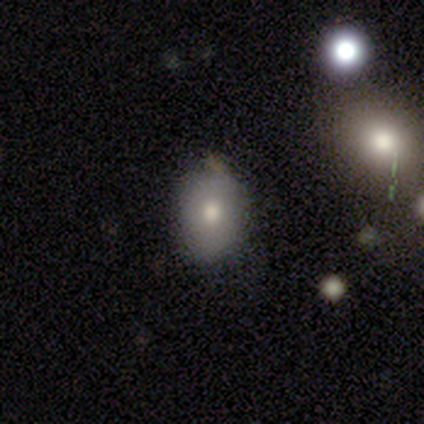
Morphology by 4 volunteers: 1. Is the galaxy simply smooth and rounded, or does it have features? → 50% smooth, 25% featured or disk, 25% star or artifact.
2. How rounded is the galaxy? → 50% round (tied), 50% in between (tied), 0% cigar-shaped.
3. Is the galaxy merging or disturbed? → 67% none, 33% minor disturbance, 0% major disturbance, 0% merger.